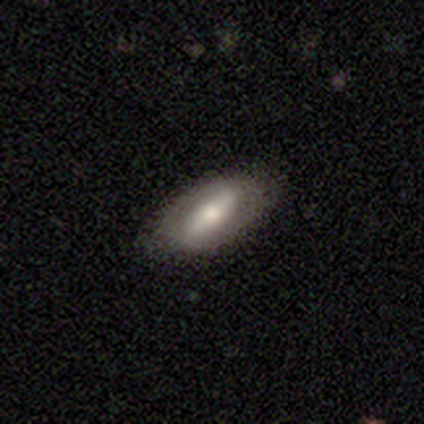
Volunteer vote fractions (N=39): smooth_or_featured: featured or disk (p=0.54) [alt: smooth p=0.44]
disk_edge_on: no (p=0.86) [alt: yes p=0.14]
bar: strong (p=0.56) [alt: weak p=0.39]
has_spiral_arms: no (p=0.61) [alt: yes p=0.39]
bulge_size: moderate (p=0.89) [alt: large p=0.11]
merging: none (p=0.92) [alt: minor disturbance p=0.08]